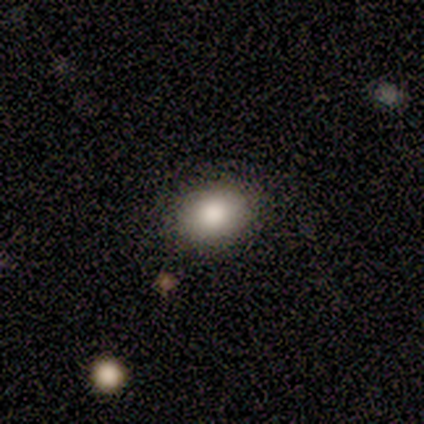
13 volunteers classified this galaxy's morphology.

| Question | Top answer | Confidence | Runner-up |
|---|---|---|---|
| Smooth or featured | smooth | 92% | featured or disk (8%) |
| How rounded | in between | 75% | round (25%) |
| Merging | none | 92% | minor disturbance (8%) |